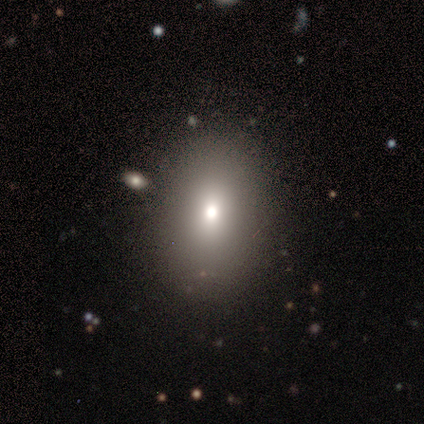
smooth_or_featured: smooth (p=0.60) [alt: star or artifact p=0.40]
how_rounded: in between (p=0.67) [alt: round p=0.33]
merging: none (p=1.00)